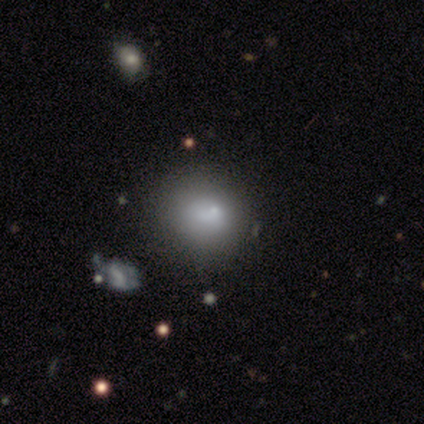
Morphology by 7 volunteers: This appears to be a smooth galaxy with no disk features (86%) that is round (67%). Merging: none (50%).